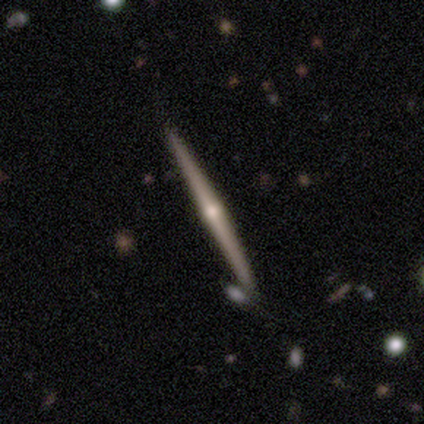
featured or disk 92%, smooth 6%, star or artifact 2%. Down the decision tree: edge-on disk — yes (100%); edge-on bulge — rounded (89%); merging — none (85%).